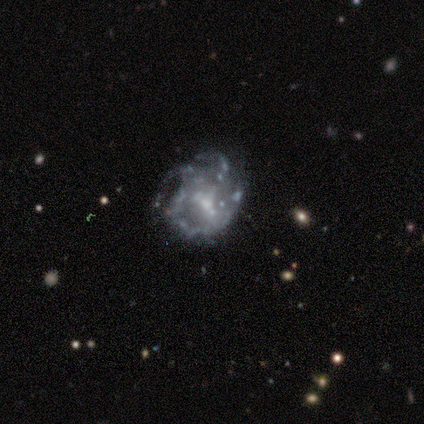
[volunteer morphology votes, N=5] This appears to be a featured or disk galaxy (100%) with no bar (80%), tight (50%) spiral arms (80%) and a moderate central bulge (60%). Merging: none (100%).